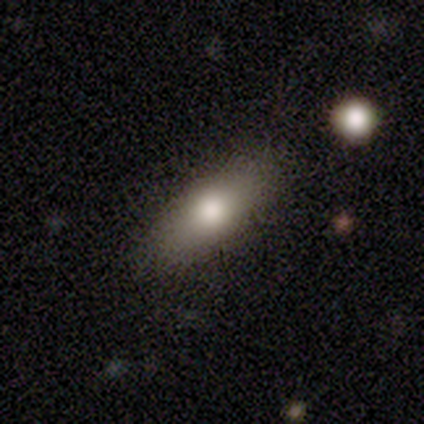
Q: Smooth or featured?
A: smooth (100%)
Q: How rounded?
A: in between (100%)
Q: Merging?
A: none (100%)